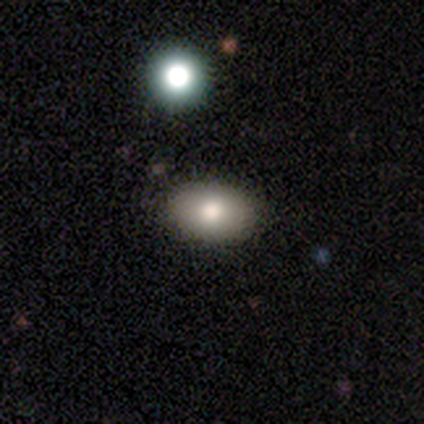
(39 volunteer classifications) This is likely a smooth galaxy (79%). How rounded: clearly in between (84%). Merging: clearly none (87%).